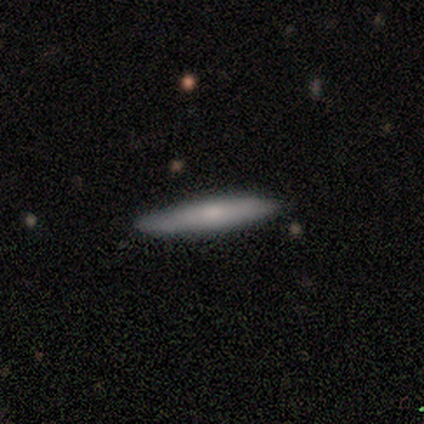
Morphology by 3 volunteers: smooth 67%, star or artifact 33%, featured or disk 0%. Down the decision tree: how rounded — cigar-shaped (100%); merging — none (100%).